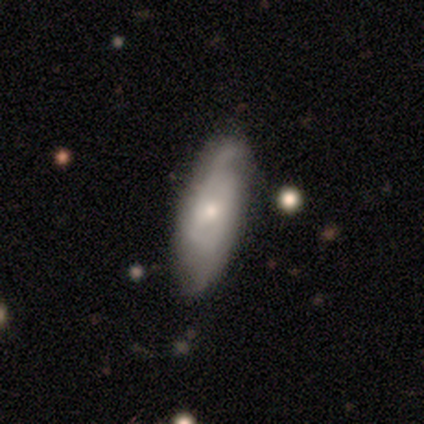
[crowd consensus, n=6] Overall: featured or disk (67%; smooth 33%). Edge-on disk: no (100%). Bar: weak (50%; strong 25%). Spiral arms: yes (100%). Spiral arm count: can't tell (50%; 2 25%). Spiral winding: medium (50%; tight 25%). Bulge size: moderate (50%, tied with small). Merging: none (67%; minor disturbance 33%).